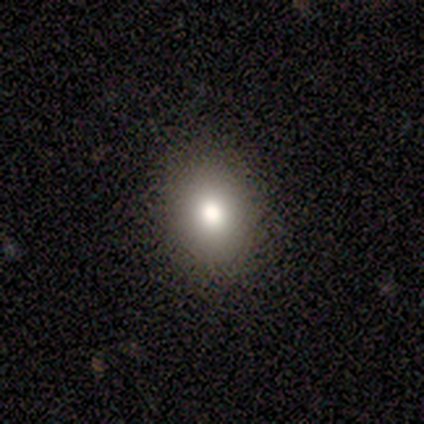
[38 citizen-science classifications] Smooth or featured: smooth — 74% (star or artifact — 16%)
How rounded: round — 61% (in between — 39%)
Merging: none — 94% (minor disturbance — 6%)